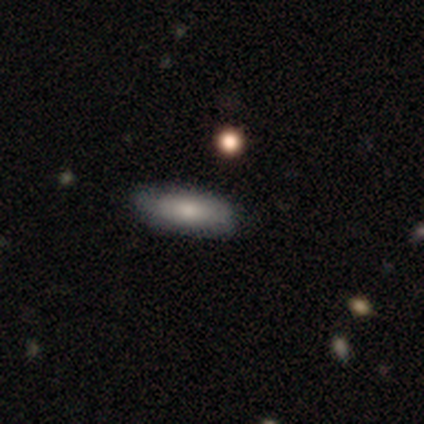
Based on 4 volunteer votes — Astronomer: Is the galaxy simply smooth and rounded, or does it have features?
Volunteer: smooth — 75%.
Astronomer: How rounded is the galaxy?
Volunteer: in between — 67%.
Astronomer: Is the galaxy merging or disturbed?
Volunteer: none — 75%.